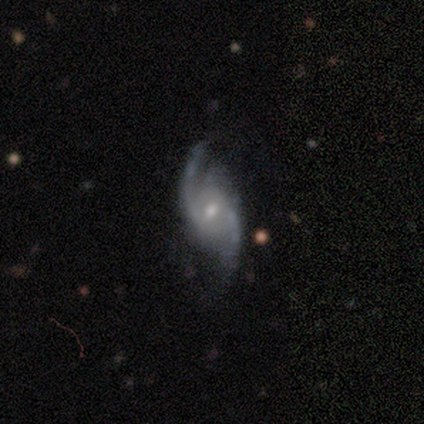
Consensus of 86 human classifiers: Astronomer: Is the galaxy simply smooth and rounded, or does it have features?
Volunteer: featured or disk — 88%.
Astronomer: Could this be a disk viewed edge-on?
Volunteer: no — 96%.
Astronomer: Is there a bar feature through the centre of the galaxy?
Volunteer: weak — 47% (runner-up: no, 45%).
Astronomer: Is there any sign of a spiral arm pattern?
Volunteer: yes — 97%.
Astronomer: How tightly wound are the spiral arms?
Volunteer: medium — 44% (runner-up: loose, 39%).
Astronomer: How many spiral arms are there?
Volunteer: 2 — 90%.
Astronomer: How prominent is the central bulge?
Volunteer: moderate — 48% (runner-up: small, 47%).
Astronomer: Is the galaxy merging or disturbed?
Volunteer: none — 66%.